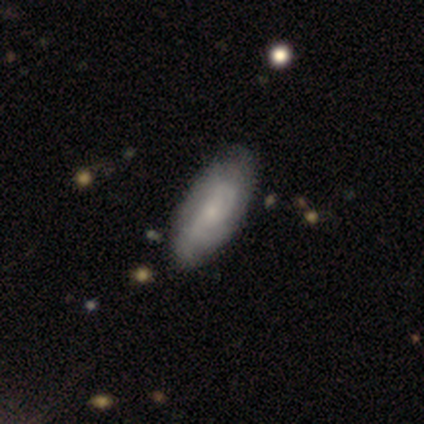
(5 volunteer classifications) Q: Smooth or featured?
A: featured or disk (80%); runner-up: smooth (20%)
Q: Edge-on disk?
A: no (100%)
Q: Bar?
A: no (75%); runner-up: strong (25%)
Q: Spiral arms?
A: yes (100%)
Q: Spiral winding?
A: tight (75%); runner-up: medium (25%)
Q: Spiral arm count?
A: 2 (50%); runner-up: 3 (25%)
Q: Bulge size?
A: small (50%); runner-up: moderate (25%)
Q: Merging?
A: none (100%)